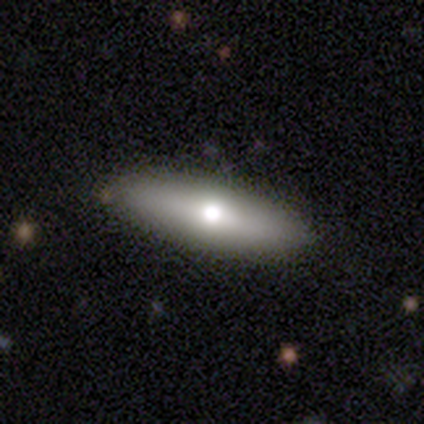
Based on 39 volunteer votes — A smooth galaxy with no disk features (62%) that is cigar-shaped (58%). Merging: none (86%).